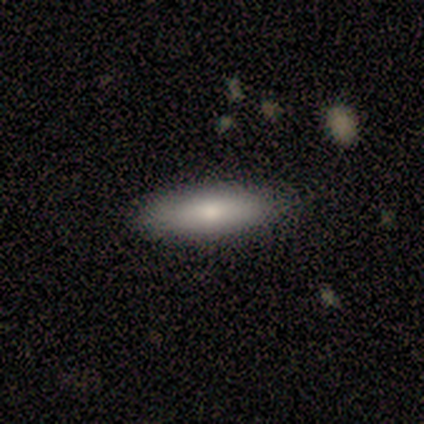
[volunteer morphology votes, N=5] Smooth or featured?
  - smooth: 100% *
  - featured or disk: 0%
  - star or artifact: 0%
How rounded?
  - in between: 60% *
  - cigar-shaped: 40%
  - round: 0%
Merging?
  - none: 100% *
  - minor disturbance: 0%
  - major disturbance: 0%
  - merger: 0%